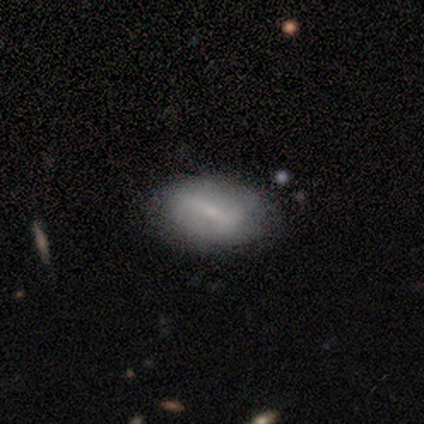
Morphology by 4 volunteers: A smooth galaxy with no disk features (50%, tied with featured or disk) that is in between round and cigar-shaped (100%).

Vote fractions:
- Smooth or featured? smooth: 50% (tied) / featured or disk: 50% (tied) / star or artifact: 0%
- How rounded? in between: 100% / round: 0% / cigar-shaped: 0%
- Merging? none: 75% / minor disturbance: 25% / major disturbance: 0% / merger: 0%